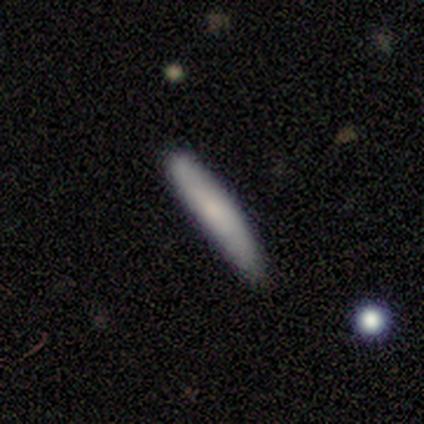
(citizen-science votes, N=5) smooth_or_featured: smooth (p=1.00)
how_rounded: cigar-shaped (p=1.00)
merging: none (p=1.00)